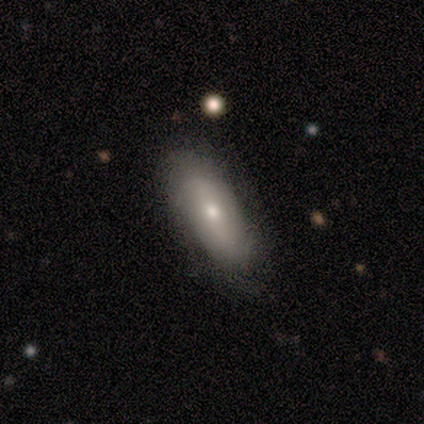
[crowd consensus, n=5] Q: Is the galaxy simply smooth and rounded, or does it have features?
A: smooth — 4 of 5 (80%).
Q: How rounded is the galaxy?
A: in between — 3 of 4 (75%).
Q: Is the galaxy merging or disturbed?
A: none — 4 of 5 (80%).